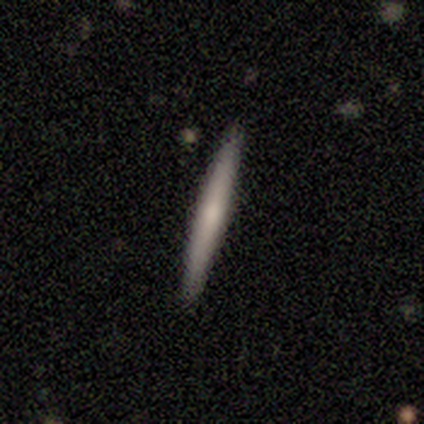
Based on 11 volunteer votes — A featured or disk galaxy (55%) viewed edge-on (100%) with a rounded central bulge (50%).

Vote fractions:
- Smooth or featured? featured or disk: 55% / smooth: 45% / star or artifact: 0%
- Edge-on disk? yes: 100% / no: 0%
- Edge-on bulge? rounded: 50% / none: 33% / boxy: 17%
- Merging? none: 100% / minor disturbance: 0% / major disturbance: 0% / merger: 0%